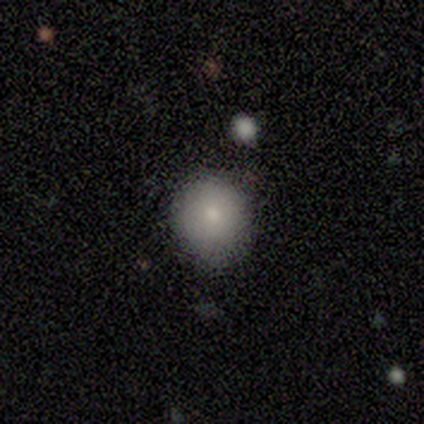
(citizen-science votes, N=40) Q: Smooth or featured?
A: smooth (78%); runner-up: star or artifact (12%)
Q: How rounded?
A: round (87%); runner-up: in between (13%)
Q: Merging?
A: none (89%); runner-up: minor disturbance (9%)